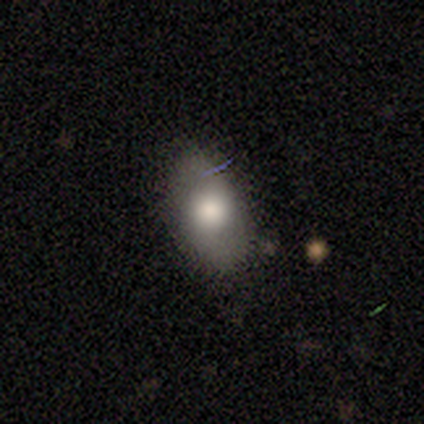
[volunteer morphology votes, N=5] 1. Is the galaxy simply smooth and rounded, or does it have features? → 100% smooth, 0% featured or disk, 0% star or artifact.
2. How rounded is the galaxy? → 100% in between, 0% round, 0% cigar-shaped.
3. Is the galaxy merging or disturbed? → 80% none, 20% minor disturbance, 0% major disturbance, 0% merger.